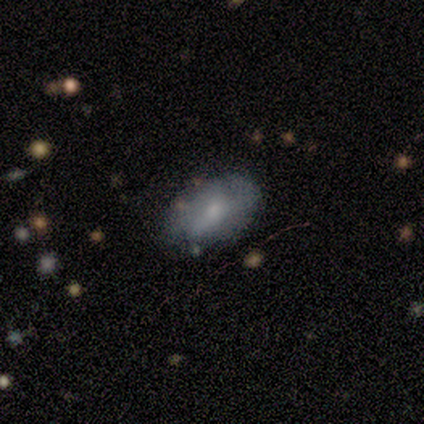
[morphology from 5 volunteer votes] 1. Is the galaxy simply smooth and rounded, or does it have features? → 100% smooth, 0% featured or disk, 0% star or artifact.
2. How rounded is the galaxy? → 100% in between, 0% round, 0% cigar-shaped.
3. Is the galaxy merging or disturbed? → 60% minor disturbance, 40% none, 0% major disturbance, 0% merger.